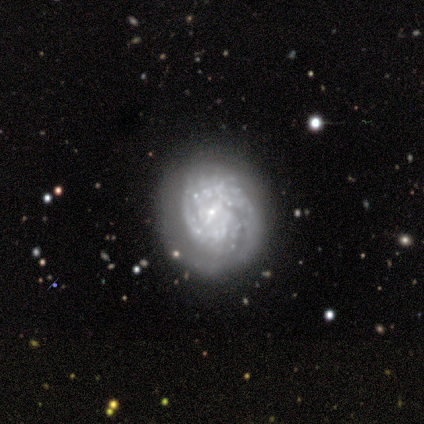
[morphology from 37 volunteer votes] smooth-or-featured: featured or disk: 95% | smooth: 5% | star or artifact: 0%
  disk-edge-on: no: 94% | yes: 6%
    bar: no: 70% | strong: 15% | weak: 15%
    has-spiral-arms: yes: 67% | no: 33%
      spiral-winding: tight: 77% | medium: 18% | loose: 5%
      spiral-arm-count: can't tell: 45% | 1: 18% | 2: 18% | 3: 14% | more than 4: 5% | 4: 0%
    bulge-size: small: 58% | none: 18% | dominant: 12% | moderate: 12% | large: 0%
  merging: none: 70% | minor disturbance: 30% | major disturbance: 0% | merger: 0%